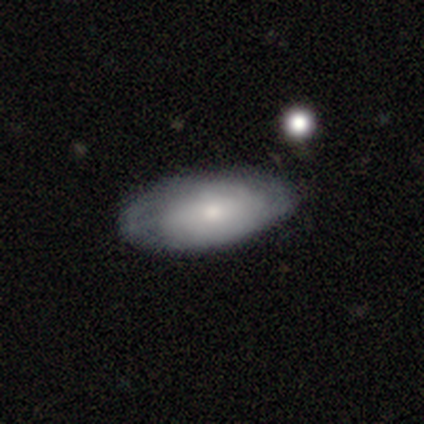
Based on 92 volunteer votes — smooth-or-featured: smooth: 54% | featured or disk: 41% | star or artifact: 4%
  how-rounded: in between: 94% | round: 6% | cigar-shaped: 0%
  merging: none: 73% | minor disturbance: 22% | major disturbance: 5% | merger: 1%